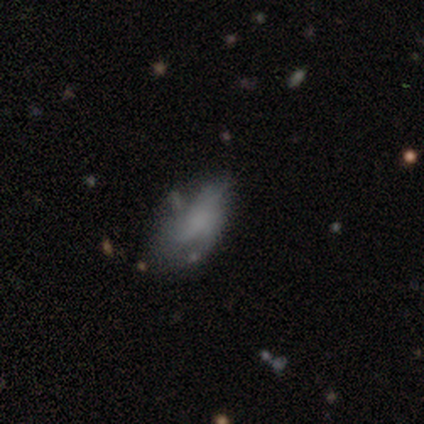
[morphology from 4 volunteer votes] This is possibly a smooth galaxy (50%, tied with featured or disk). How rounded: possibly in between (50%, tied with cigar-shaped). Merging: possibly none (50%).